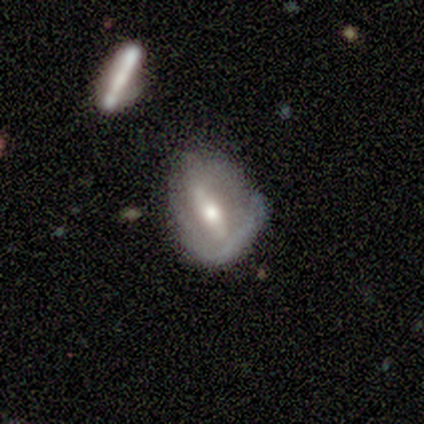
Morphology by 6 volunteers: Smooth or featured? 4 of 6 (67%) said smooth. How rounded? 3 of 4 (75%) said in between. Merging? 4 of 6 (67%) said none.